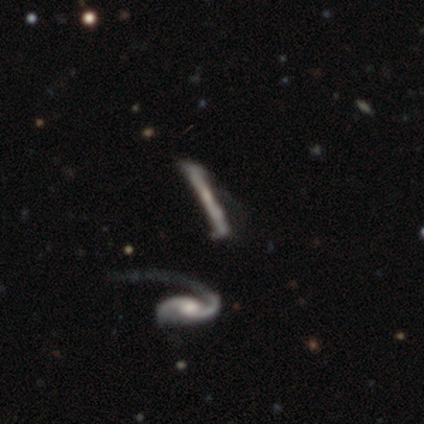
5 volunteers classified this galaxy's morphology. A featured or disk galaxy (40%, tied with star or artifact) with a weak bar (50%, tied with no), 2 (100%) loose (100%) spiral arms (100%) and a large central bulge (50%, tied with small).

Vote fractions:
- Smooth or featured? featured or disk: 40% (tied) / star or artifact: 40% (tied) / smooth: 20%
- Edge-on disk? no: 100% / yes: 0%
- Bar? weak: 50% (tied) / no: 50% (tied) / strong: 0%
- Spiral arms? yes: 100% / no: 0%
- Spiral winding? loose: 100% / tight: 0% / medium: 0%
- Spiral arm count? 2: 100% / 1: 0% / 3: 0% / 4: 0% / more than 4: 0% / can't tell: 0%
- Bulge size? large: 50% (tied) / small: 50% (tied) / dominant: 0% / moderate: 0% / none: 0%
- Merging? major disturbance: 67% / minor disturbance: 33% / none: 0% / merger: 0%